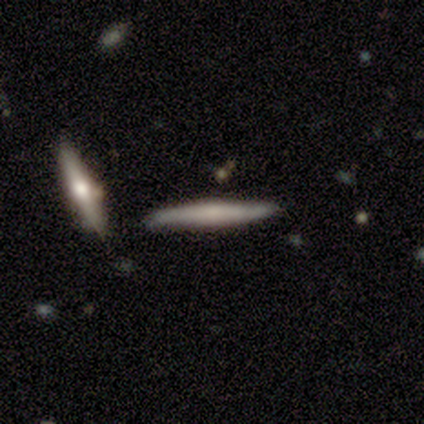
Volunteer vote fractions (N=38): smooth-or-featured: smooth: 53% | featured or disk: 39% | star or artifact: 8%
  how-rounded: cigar-shaped: 90% | round: 5% | in between: 5%
  merging: none: 60% | minor disturbance: 23% | merger: 14% | major disturbance: 3%